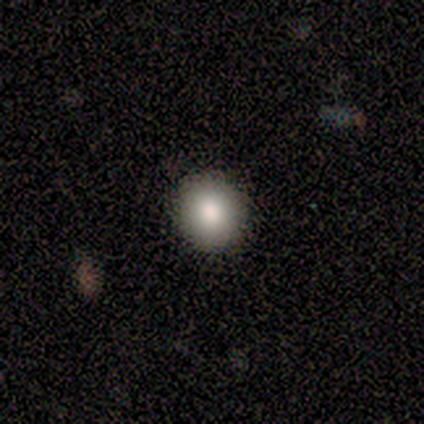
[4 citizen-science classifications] Q: Smooth or featured?
A: smooth (75%); runner-up: featured or disk (25%)
Q: How rounded?
A: round (100%)
Q: Merging?
A: none (100%)